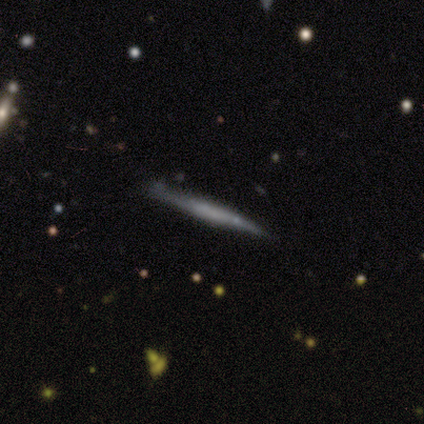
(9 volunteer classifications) Smooth or featured? 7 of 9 (78%) said featured or disk. Edge-on disk? 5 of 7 (71%) said yes. Edge-on bulge? 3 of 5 (60%) said none. Merging? 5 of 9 (56%) said none.